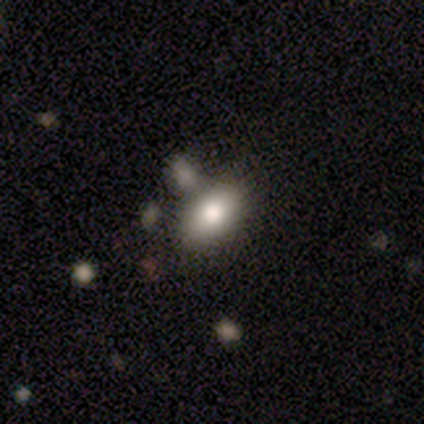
smooth_or_featured: smooth (p=0.80) [alt: featured or disk p=0.20]
how_rounded: in between (p=1.00)
merging: minor disturbance (p=0.80) [alt: none p=0.20]